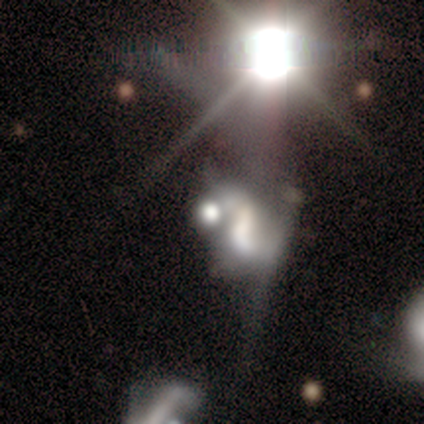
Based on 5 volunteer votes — Morphology: type=star or artifact (60%).